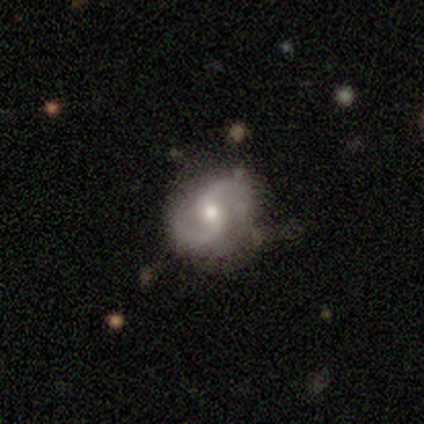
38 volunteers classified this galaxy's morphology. A featured or disk galaxy (79%) with a weak bar (50%), 2 (97%) medium (50%) spiral arms (100%) and a small central bulge (50%).

Vote fractions:
- Smooth or featured? featured or disk: 79% / smooth: 18% / star or artifact: 3%
- Edge-on disk? no: 100% / yes: 0%
- Bar? weak: 50% / no: 43% / strong: 7%
- Spiral arms? yes: 100% / no: 0%
- Spiral winding? medium: 50% / loose: 47% / tight: 3%
- Spiral arm count? 2: 97% / 3: 3% / 1: 0% / 4: 0% / more than 4: 0% / can't tell: 0%
- Bulge size? small: 50% / moderate: 43% / large: 7% / dominant: 0% / none: 0%
- Merging? none: 76% / minor disturbance: 19% / major disturbance: 3% / merger: 3%